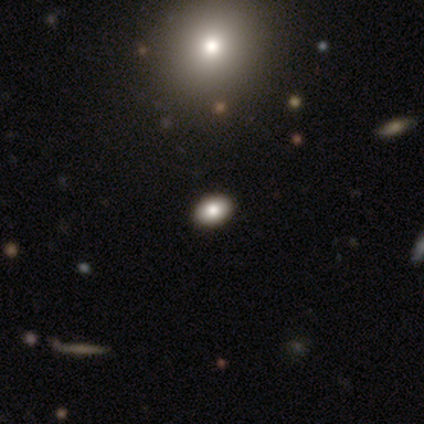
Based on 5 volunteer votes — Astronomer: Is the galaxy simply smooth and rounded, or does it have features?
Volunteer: smooth — 80%.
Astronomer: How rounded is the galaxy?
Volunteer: in between — 100%.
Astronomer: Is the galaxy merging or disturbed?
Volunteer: none — 100%.